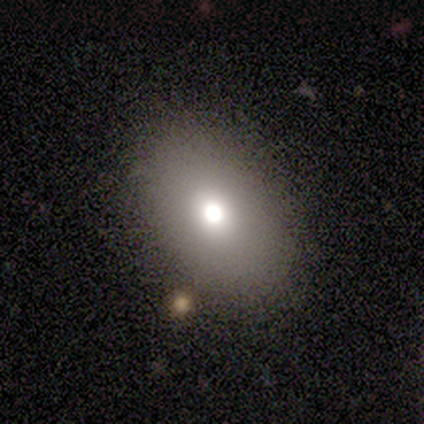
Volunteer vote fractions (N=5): smooth-or-featured: smooth: 80% | featured or disk: 20% | star or artifact: 0%
  how-rounded: in between: 75% | round: 25% | cigar-shaped: 0%
  merging: major disturbance: 40% | none: 20% | minor disturbance: 20% | merger: 20%